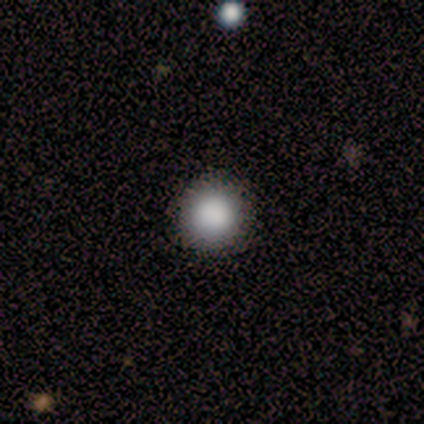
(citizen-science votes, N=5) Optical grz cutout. It shows a smooth galaxy with no disk features (80%) that is round (100%). Merging: none (100%).